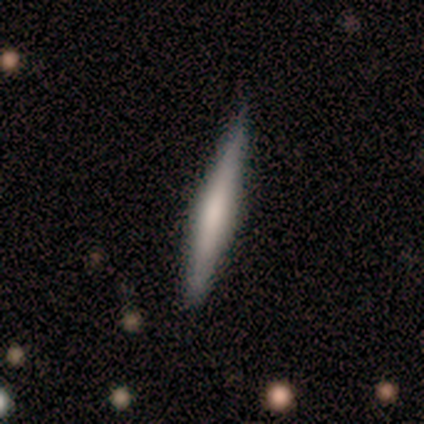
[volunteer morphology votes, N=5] Smooth or featured? featured or disk (60%)
Edge-on disk? yes (100%)
Edge-on bulge? boxy (33%, tied with none and rounded)
Merging? none (100%)